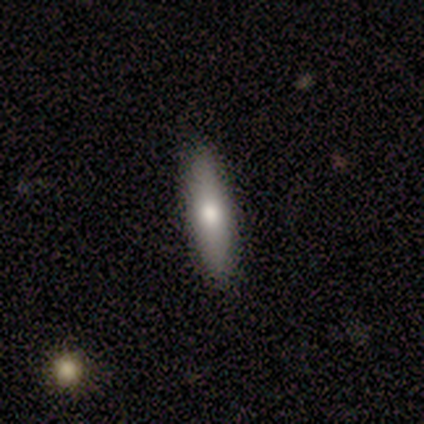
Smooth or featured?
  - smooth: 69% *
  - featured or disk: 21%
  - star or artifact: 10%
How rounded?
  - cigar-shaped: 93% *
  - in between: 7%
  - round: 0%
Merging?
  - none: 86% *
  - minor disturbance: 11%
  - merger: 3%
  - major disturbance: 0%